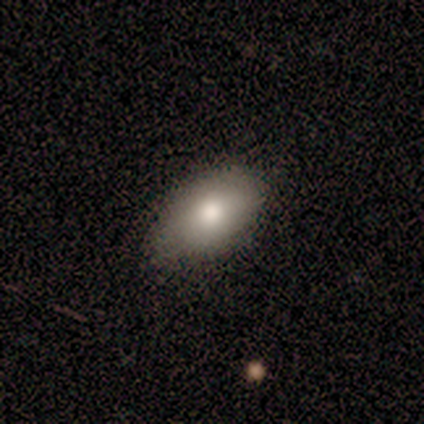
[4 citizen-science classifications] Morphology: type=smooth (100%); roundness=in between (100%); merging=none (100%).